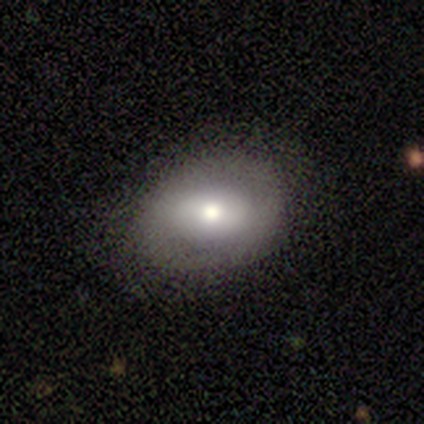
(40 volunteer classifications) Volunteers were most divided on "smooth or featured": featured or disk: 48%, smooth: 45%, star or artifact: 8%. Remaining: edge-on disk — no (89%); merging — none (84%); spiral arms — no (65%); bar — weak (47%); bulge size — moderate (35%).